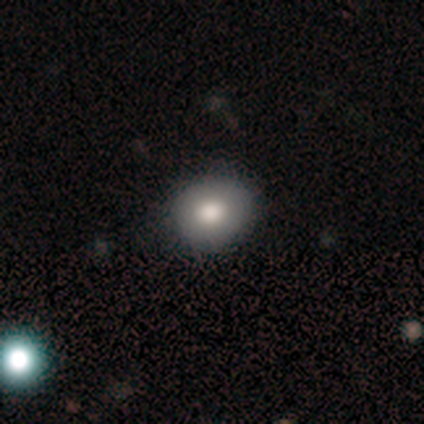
Smooth or featured? smooth (67%)
How rounded? round (100%)
Merging? none (40%, tied with minor disturbance)